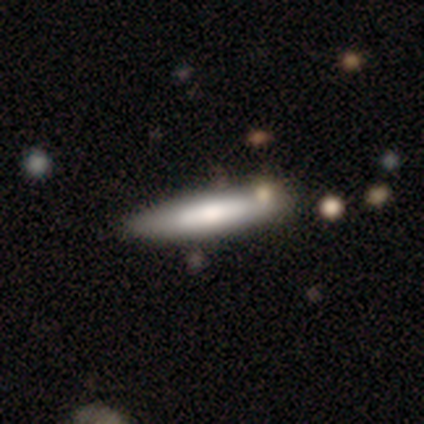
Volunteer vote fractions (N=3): Morphology: type=smooth (67%); roundness=cigar-shaped (100%); merging=none (67%).